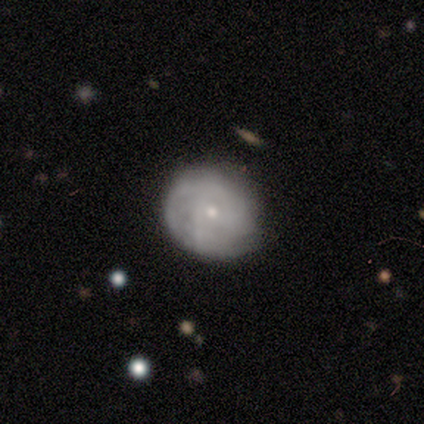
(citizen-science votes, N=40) This appears to be a featured or disk galaxy (70%) with no bar (71%), tight (47%) spiral arms (68%) and a small central bulge (68%). Merging: none (54%).